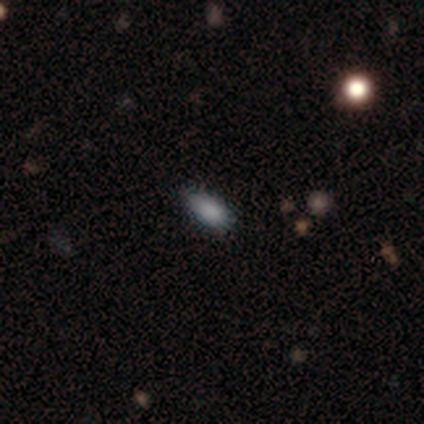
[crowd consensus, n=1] Smooth or featured? featured or disk (100%)
Edge-on disk? no (100%)
Bar? weak (100%)
Spiral arms? no (100%)
Bulge size? small (100%)
Merging? none (100%)